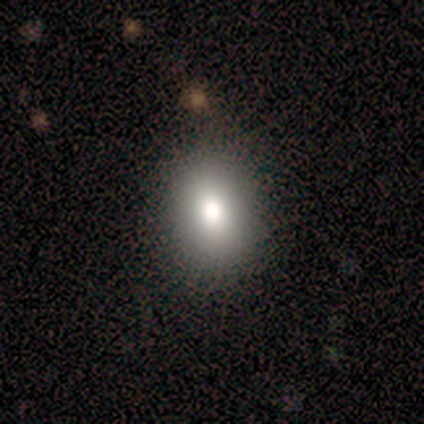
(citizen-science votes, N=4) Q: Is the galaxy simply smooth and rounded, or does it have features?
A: smooth — 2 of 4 (50%, tied with featured or disk).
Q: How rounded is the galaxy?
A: round — 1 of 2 (50%, tied with in between).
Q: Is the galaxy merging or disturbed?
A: none — 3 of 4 (75%).